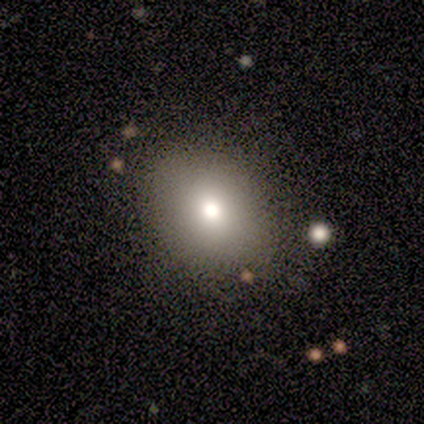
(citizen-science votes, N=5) A smooth galaxy with no disk features (60%) that is in between round and cigar-shaped (67%).

Vote fractions:
- Smooth or featured? smooth: 60% / star or artifact: 40% / featured or disk: 0%
- How rounded? in between: 67% / round: 33% / cigar-shaped: 0%
- Merging? none: 100% / minor disturbance: 0% / major disturbance: 0% / merger: 0%